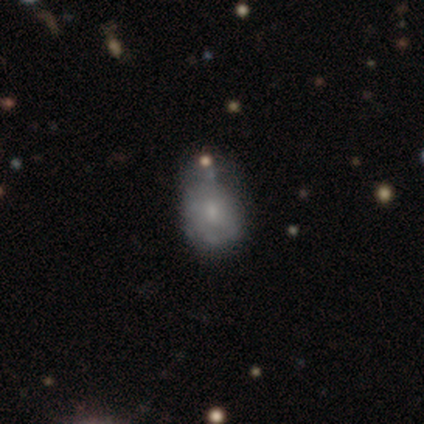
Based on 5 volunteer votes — smooth 40% (tied), featured or disk 40% (tied), star or artifact 20%. Down the decision tree: how rounded — round (50%, tied with in between); merging — none (50%).